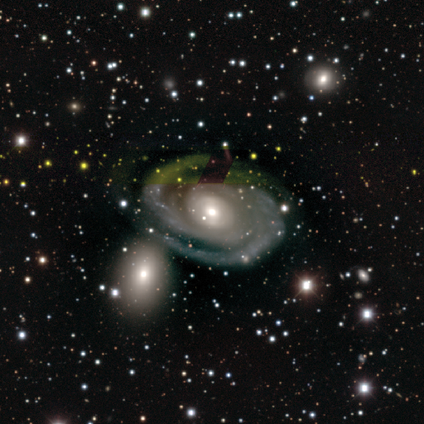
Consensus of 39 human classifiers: Overall: featured or disk (95%). Edge-on disk: no (97%). Bar: no (64%; weak 28%). Spiral arms: yes (100%). Spiral arm count: 2 (64%). Spiral winding: tight (75%). Bulge size: moderate (58%; small 33%). Merging: none (69%).